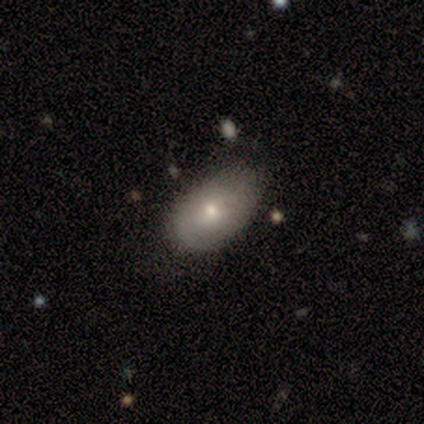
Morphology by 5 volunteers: Volunteers were most divided on "smooth or featured": featured or disk: 60%, smooth: 40%, star or artifact: 0%. More confident: edge-on disk — no (100%); bar — no (100%); merging — none (100%); spiral arms — no (67%); bulge size — small (67%).